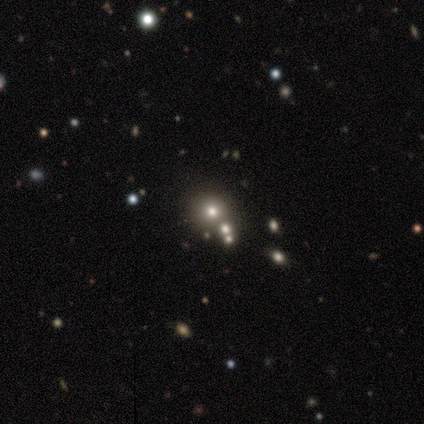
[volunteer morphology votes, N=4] smooth 100%, featured or disk 0%, star or artifact 0%. Down the decision tree: how rounded — round (100%); merging — none (50%).